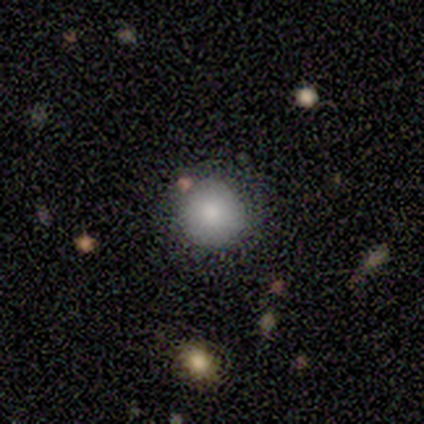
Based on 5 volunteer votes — smooth-or-featured: smooth: 60% | star or artifact: 40% | featured or disk: 0%
  how-rounded: round: 100% | in between: 0% | cigar-shaped: 0%
  merging: none: 67% | minor disturbance: 33% | major disturbance: 0% | merger: 0%